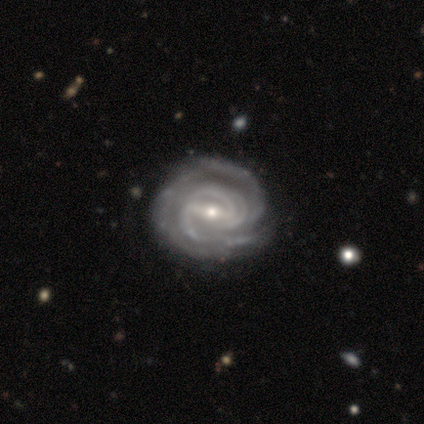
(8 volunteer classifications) smooth_or_featured: featured or disk (p=1.00)
disk_edge_on: no (p=1.00)
bar: weak (p=0.62) [alt: strong p=0.38]
has_spiral_arms: yes (p=1.00)
spiral_winding: tight (p=0.88) [alt: medium p=0.12]
spiral_arm_count: 2 (p=0.25) [tied with: more than 4 p=0.25, can't tell p=0.25]
bulge_size: small (p=0.62) [alt: moderate p=0.38]
merging: none (p=1.00)